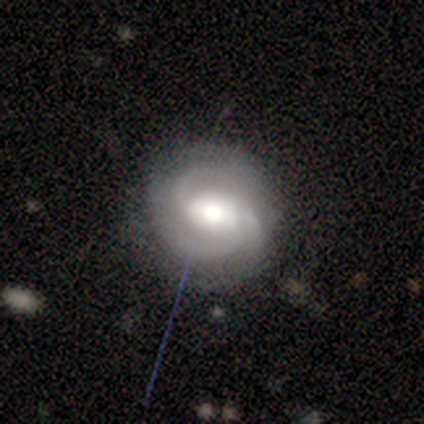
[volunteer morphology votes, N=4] featured or disk 100%, smooth 0%, star or artifact 0%. Down the decision tree: edge-on disk — no (100%); bar — strong (50%); spiral arms — yes (100%); spiral arm count — 2 (75%); spiral winding — tight (75%); bulge size — large (50%, tied with moderate); merging — none (75%).